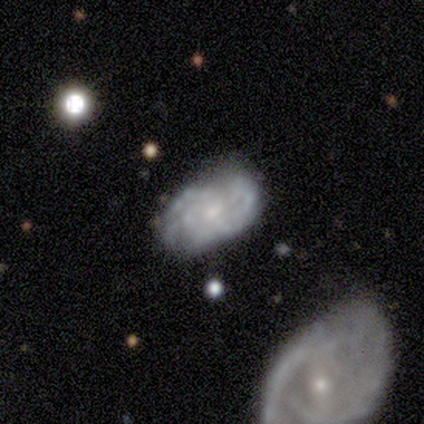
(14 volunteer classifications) Smooth or featured? featured or disk (64%)
Edge-on disk? no (89%)
Bar? no (88%)
Spiral arms? no (62%)
Bulge size? small (75%)
Merging? none (62%)